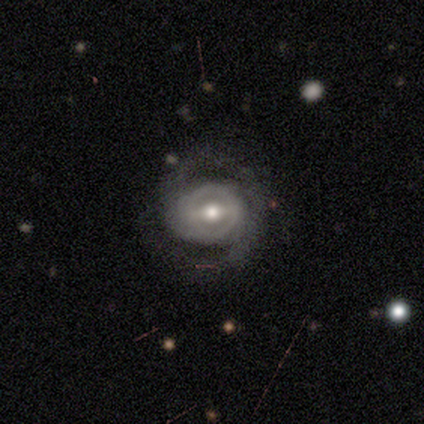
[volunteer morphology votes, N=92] Smooth or featured? 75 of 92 (82%) said featured or disk. Edge-on disk? 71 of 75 (95%) said no. Bar? 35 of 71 (49%) said weak. Spiral arms? 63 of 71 (89%) said yes. Spiral winding? 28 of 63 (44%) said medium. Spiral arm count? 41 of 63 (65%) said 2. Bulge size? 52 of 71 (73%) said moderate. Merging? 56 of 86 (65%) said none.